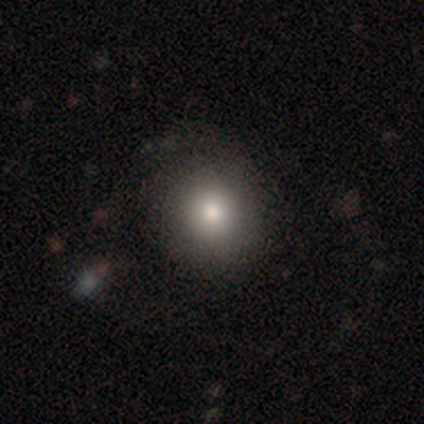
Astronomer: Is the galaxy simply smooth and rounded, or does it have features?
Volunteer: smooth — 74%.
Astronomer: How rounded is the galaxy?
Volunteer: round — 86%.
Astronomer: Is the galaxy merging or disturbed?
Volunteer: none — 54%.